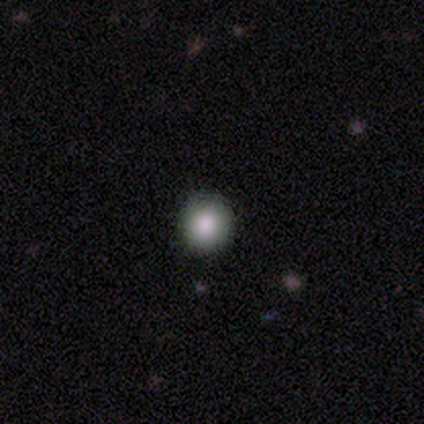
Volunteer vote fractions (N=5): smooth 100%, featured or disk 0%, star or artifact 0%. Down the decision tree: how rounded — round (100%); merging — none (80%).